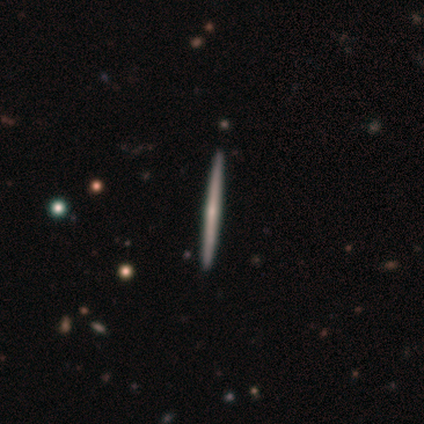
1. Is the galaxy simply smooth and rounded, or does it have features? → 67% featured or disk, 32% smooth, 1% star or artifact.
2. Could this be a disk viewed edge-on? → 100% yes, 0% no.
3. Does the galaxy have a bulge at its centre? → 56% none, 40% rounded, 4% boxy.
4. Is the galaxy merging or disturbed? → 49% none, 1% minor disturbance, 1% merger, 0% major disturbance.